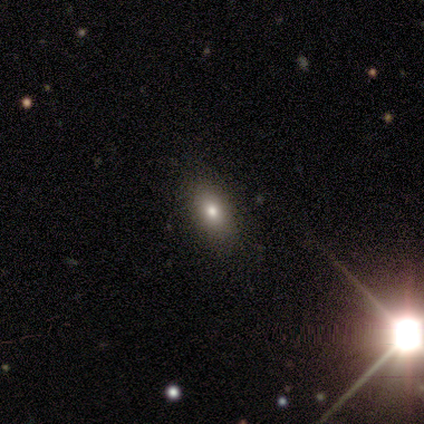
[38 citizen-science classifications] smooth 82%, star or artifact 11%, featured or disk 8%. Down the decision tree: how rounded — in between (81%); merging — none (65%).